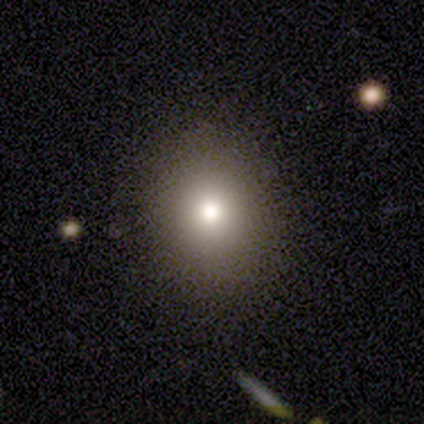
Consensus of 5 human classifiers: Overall: smooth (60%; featured or disk 20%). How rounded: in between (67%; round 33%). Merging: none (100%).